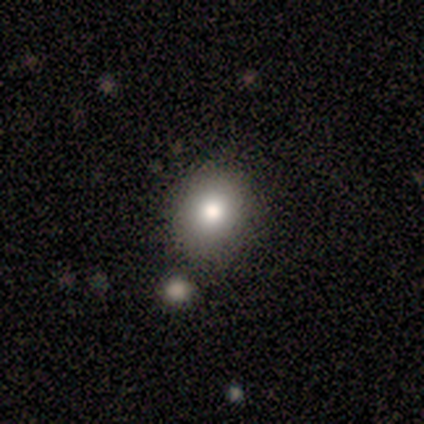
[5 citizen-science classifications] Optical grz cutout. It shows a smooth galaxy with no disk features (60%) that is in between round and cigar-shaped (67%). Merging: none (67%).